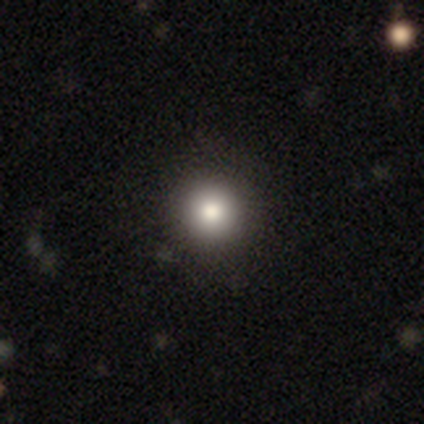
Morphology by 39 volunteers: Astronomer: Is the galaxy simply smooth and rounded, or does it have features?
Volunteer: smooth — 85%.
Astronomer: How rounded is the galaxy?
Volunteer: round — 100%.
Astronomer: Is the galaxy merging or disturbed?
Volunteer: none — 89%.